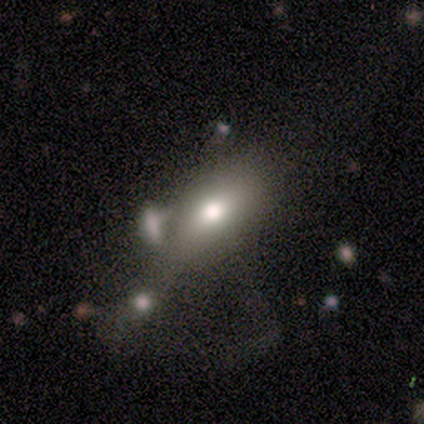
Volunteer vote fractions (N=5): smooth_or_featured: smooth (p=0.60) [alt: featured or disk p=0.40]
how_rounded: in between (p=1.00)
merging: major disturbance (p=0.60) [alt: none p=0.20]